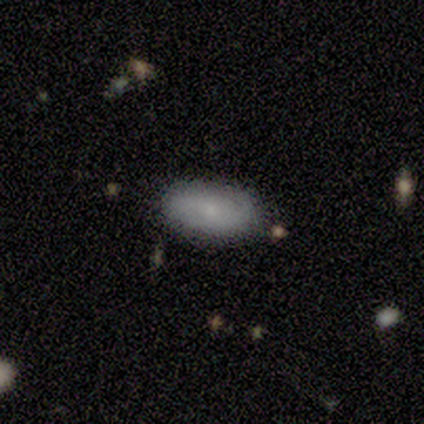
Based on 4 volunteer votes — A smooth galaxy with no disk features (50%, tied with featured or disk) that is in between round and cigar-shaped (100%). Merging: none (75%).